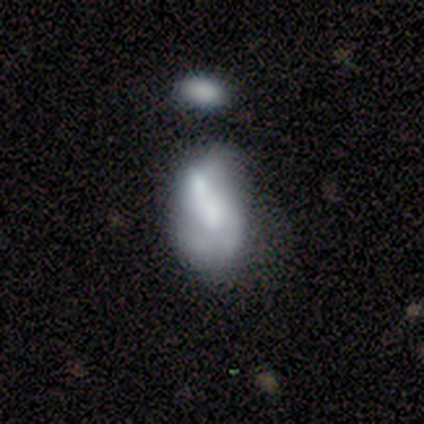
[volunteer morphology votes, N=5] This appears to be a featured or disk galaxy (100%) with no bar (80%), no spiral arms (60%) and a moderate central bulge (40%, tied with none). Merging: merger (60%).